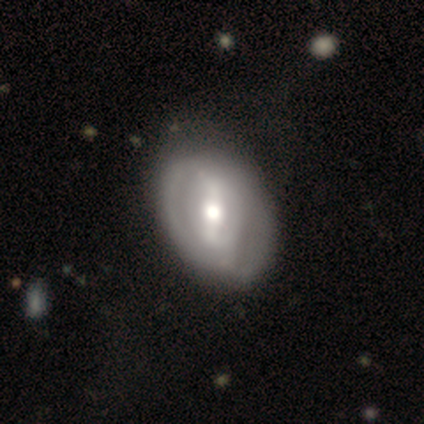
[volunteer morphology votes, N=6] featured or disk 50%, smooth 33%, star or artifact 17%. Down the decision tree: edge-on disk — no (100%); bar — weak (67%); spiral arms — no (67%); bulge size — moderate (67%); merging — minor disturbance (40%, tied with major disturbance).